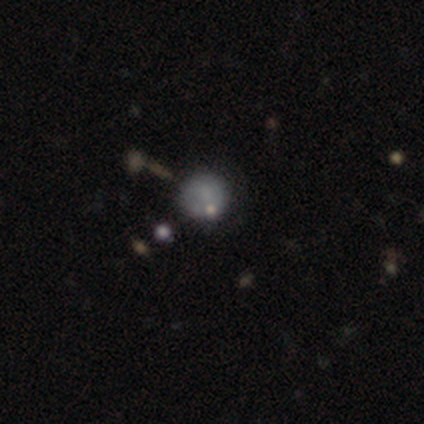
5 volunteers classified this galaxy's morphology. Smooth or featured? 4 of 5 (80%) said smooth. How rounded? 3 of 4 (75%) said round. Merging? 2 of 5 (40%, tied with major disturbance) said minor disturbance.